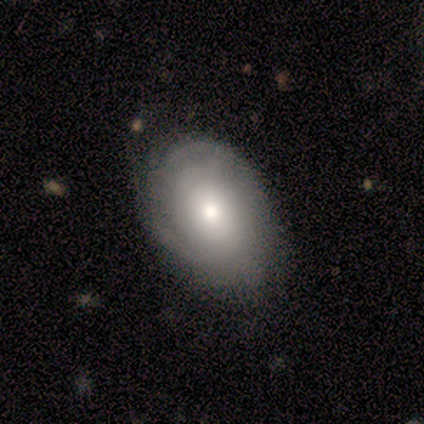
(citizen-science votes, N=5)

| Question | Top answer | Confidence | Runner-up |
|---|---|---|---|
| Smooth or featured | smooth | 80% | featured or disk (20%) |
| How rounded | round | 75% | in between (25%) |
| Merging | none | 60% | minor disturbance (40%) |